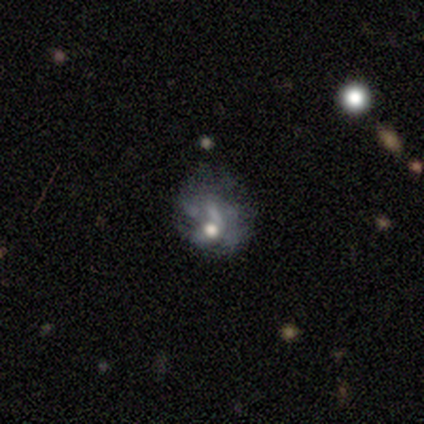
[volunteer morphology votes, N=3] This appears to be a featured or disk galaxy (67%) with no bar (100%), loose (100%) spiral arms (50%, tied with no) and a moderate central bulge (100%). Merging: major disturbance (100%).